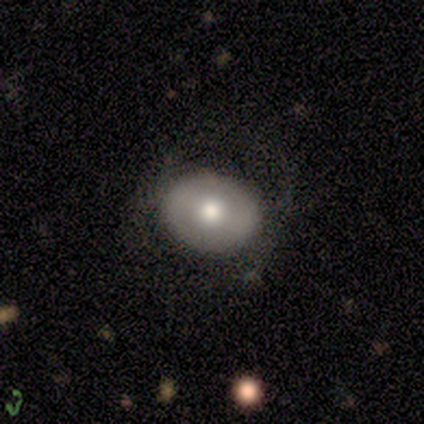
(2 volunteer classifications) This is clearly a smooth galaxy (100%). How rounded: possibly round (50%, tied with in between). Merging: clearly none (100%).